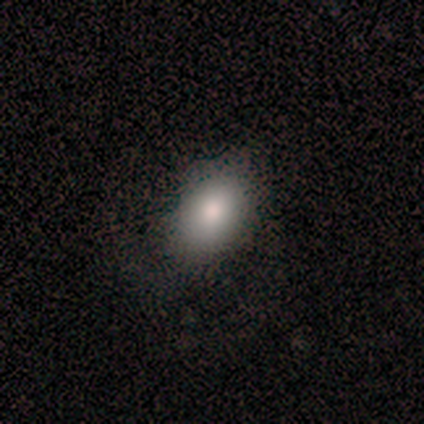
A smooth galaxy with no disk features (100%) that is in between round and cigar-shaped (80%).

Vote fractions:
- Smooth or featured? smooth: 100% / featured or disk: 0% / star or artifact: 0%
- How rounded? in between: 80% / cigar-shaped: 20% / round: 0%
- Merging? none: 60% / minor disturbance: 40% / major disturbance: 0% / merger: 0%